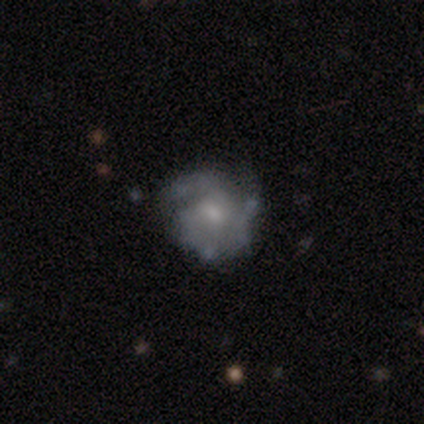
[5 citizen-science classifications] This is clearly a featured or disk galaxy (80%). It is clearly not viewed edge-on (100%). Bar: likely no (75%). Spiral arm pattern: clearly yes (100%). Spiral arm count: possibly 3 (50%). Spiral winding: likely medium (75%). Central bulge: possibly moderate (50%, tied with small). Merging: likely none (75%).